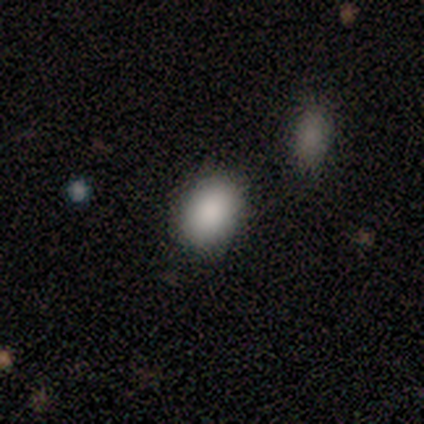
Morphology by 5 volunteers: Smooth or featured? smooth (80%)
How rounded? in between (75%)
Merging? none (40%)